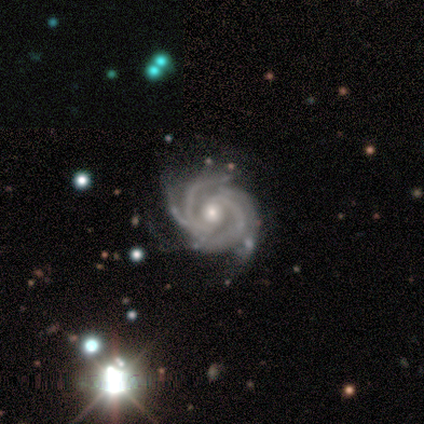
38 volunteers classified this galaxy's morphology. smooth-or-featured: featured or disk: 95% | smooth: 3% | star or artifact: 3%
  disk-edge-on: no: 100% | yes: 0%
    bar: no: 67% | weak: 25% | strong: 8%
    has-spiral-arms: yes: 100% | no: 0%
      spiral-winding: tight: 83% | medium: 17% | loose: 0%
      spiral-arm-count: 4: 61% | 2: 19% | more than 4: 8% | can't tell: 8% | 3: 3% | 1: 0%
    bulge-size: moderate: 78% | small: 19% | large: 3% | dominant: 0% | none: 0%
  merging: none: 35% | minor disturbance: 14% | major disturbance: 8% | merger: 0%